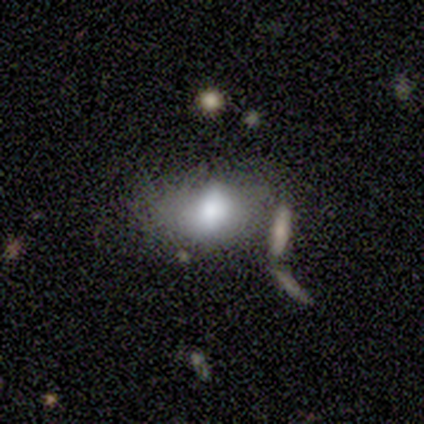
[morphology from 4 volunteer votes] A smooth galaxy with no disk features (100%) that is in between round and cigar-shaped (100%).

Vote fractions:
- Smooth or featured? smooth: 100% / featured or disk: 0% / star or artifact: 0%
- How rounded? in between: 100% / round: 0% / cigar-shaped: 0%
- Merging? none: 75% / minor disturbance: 25% / major disturbance: 0% / merger: 0%